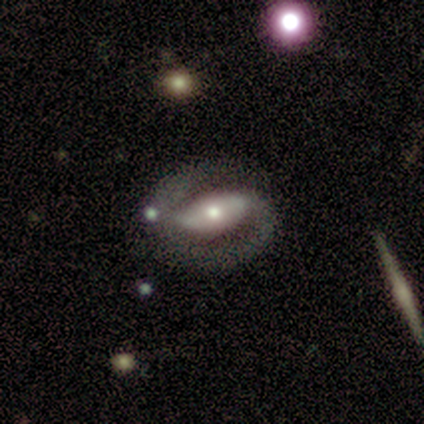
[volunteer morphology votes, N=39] A featured or disk galaxy (77%) with a strong bar (52%), 2 (96%) tight (44%) spiral arms (100%) and a moderate central bulge (59%). Merging: none (73%).